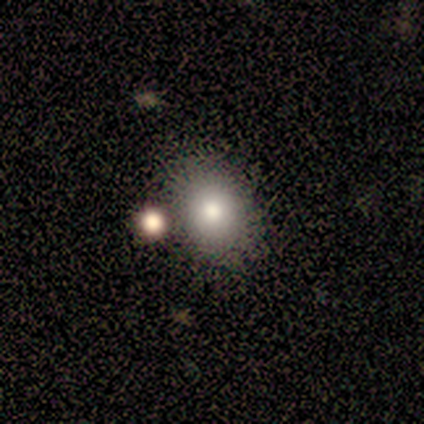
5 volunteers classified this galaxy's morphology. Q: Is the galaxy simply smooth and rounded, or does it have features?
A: smooth — 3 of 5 (60%).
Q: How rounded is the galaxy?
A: in between — 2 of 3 (67%).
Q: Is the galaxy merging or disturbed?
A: minor disturbance — 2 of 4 (50%).